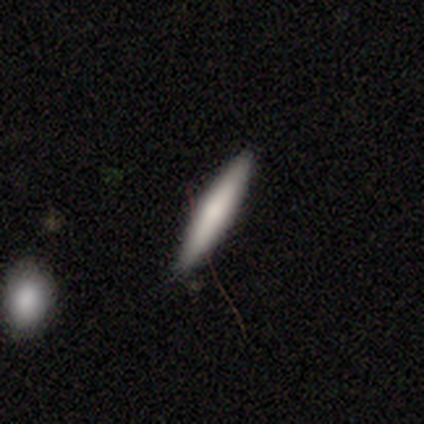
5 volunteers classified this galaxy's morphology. Smooth or featured? 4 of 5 (80%) said smooth. How rounded? 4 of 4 (100%) said cigar-shaped. Merging? 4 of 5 (80%) said none.